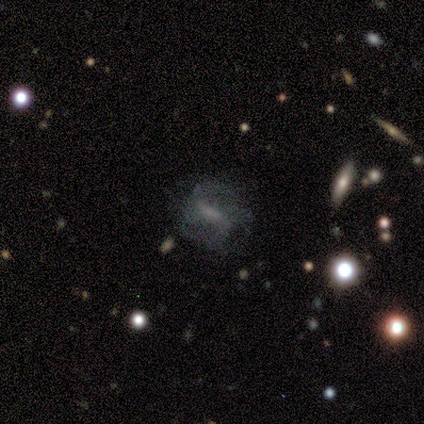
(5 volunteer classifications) Smooth or featured?
  - featured or disk: 40% * (tied)
  - star or artifact: 40% * (tied)
  - smooth: 20%
Edge-on disk?
  - yes: 50% * (tied)
  - no: 50% * (tied)
Edge-on bulge?
  - none: 100% *
  - boxy: 0%
  - rounded: 0%
Merging?
  - none: 67% *
  - major disturbance: 33%
  - minor disturbance: 0%
  - merger: 0%